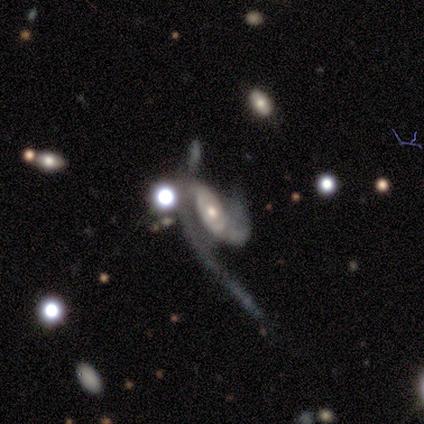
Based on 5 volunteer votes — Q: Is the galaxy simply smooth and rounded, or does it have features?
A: featured or disk — 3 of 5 (60%).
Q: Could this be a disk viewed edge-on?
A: no — 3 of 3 (100%).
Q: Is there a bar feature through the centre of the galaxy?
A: no — 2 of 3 (67%).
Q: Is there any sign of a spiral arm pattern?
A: yes — 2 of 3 (67%).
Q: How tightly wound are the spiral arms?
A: medium — 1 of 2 (50%, tied with loose).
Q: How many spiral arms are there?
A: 2 — 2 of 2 (100%).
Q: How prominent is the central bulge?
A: moderate — 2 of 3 (67%).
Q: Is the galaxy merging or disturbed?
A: major disturbance — 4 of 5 (80%).